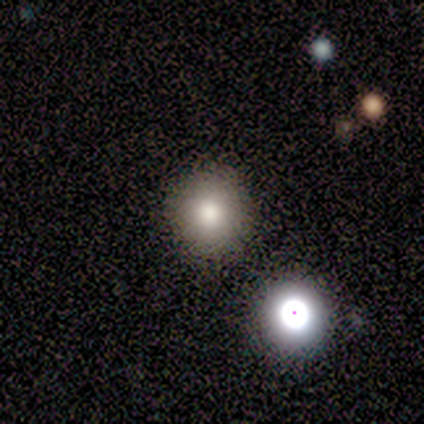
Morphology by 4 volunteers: Volunteers were most divided on "smooth or featured": smooth: 75%, star or artifact: 25%, featured or disk: 0%. More confident: how rounded — round (100%); merging — none (100%).